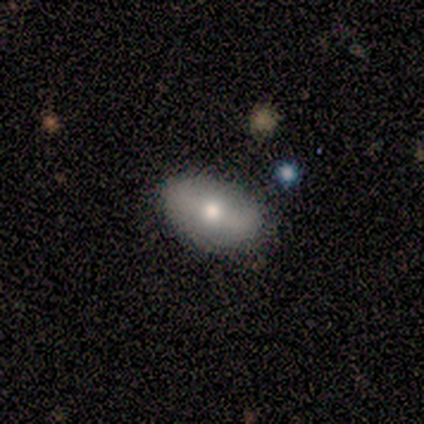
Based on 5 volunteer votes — Smooth or featured: smooth — 60% (featured or disk — 20%)
How rounded: in between — 100%
Merging: none — 100%